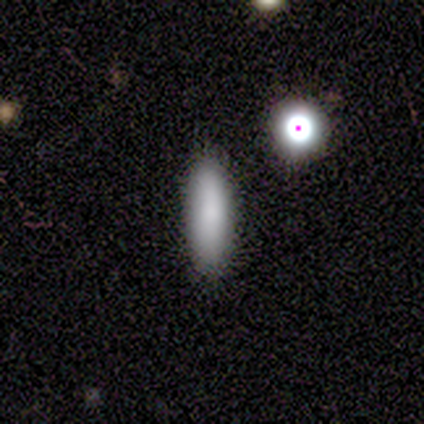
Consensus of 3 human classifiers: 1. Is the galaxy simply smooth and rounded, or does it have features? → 33% smooth (tied), 33% featured or disk (tied), 33% star or artifact (tied).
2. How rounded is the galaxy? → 100% cigar-shaped, 0% round, 0% in between.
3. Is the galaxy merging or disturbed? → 100% none, 0% minor disturbance, 0% major disturbance, 0% merger.